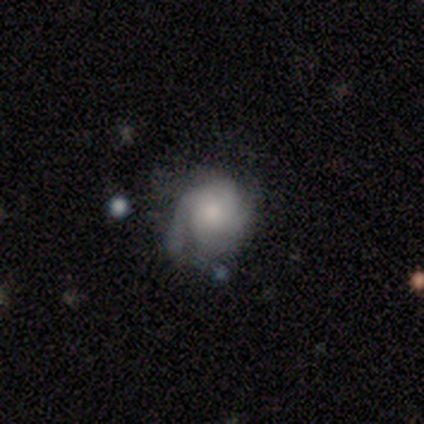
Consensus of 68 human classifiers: Overall: featured or disk (76%). Edge-on disk: no (100%). Bar: no (88%). Spiral arms: yes (87%). Spiral arm count: 2 (42%; 4 20%). Spiral winding: tight (67%). Bulge size: moderate (37%; small 33%). Merging: none (44%; minor disturbance 38%).